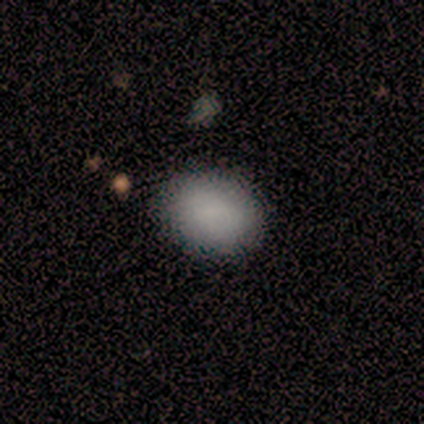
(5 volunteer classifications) A smooth galaxy with no disk features (80%) that is in between round and cigar-shaped (75%).

Vote fractions:
- Smooth or featured? smooth: 80% / star or artifact: 20% / featured or disk: 0%
- How rounded? in between: 75% / round: 25% / cigar-shaped: 0%
- Merging? none: 100% / minor disturbance: 0% / major disturbance: 0% / merger: 0%